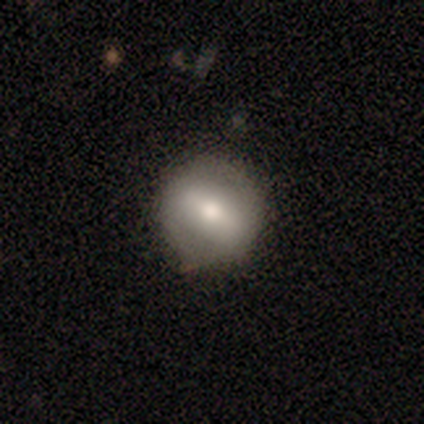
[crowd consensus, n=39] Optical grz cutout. It shows a smooth galaxy with no disk features (56%) that is round (91%). Merging: none (83%).